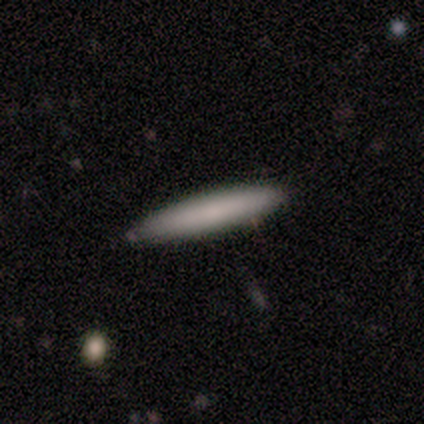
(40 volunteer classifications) Morphology: type=smooth (80%); roundness=cigar-shaped (97%); merging=none (89%).